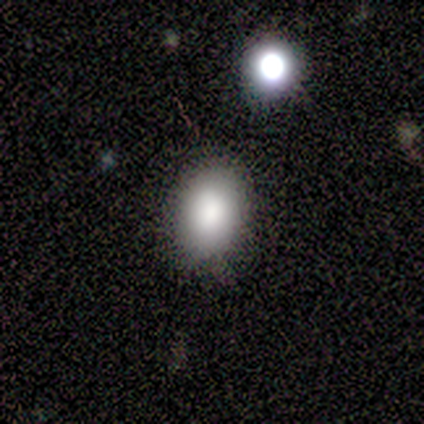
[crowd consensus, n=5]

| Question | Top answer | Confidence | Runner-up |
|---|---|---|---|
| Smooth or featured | smooth | 80% | star or artifact (20%) |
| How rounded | round | 50% | tied: in between (50%) |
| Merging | none | 75% | minor disturbance (25%) |